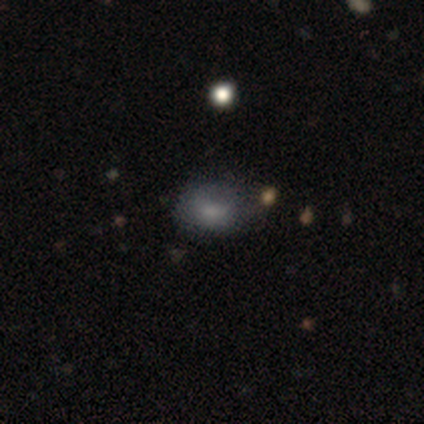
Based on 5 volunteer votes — Morphology: type=smooth (40%, tied with featured or disk); roundness=in between (100%); merging=none (50%).